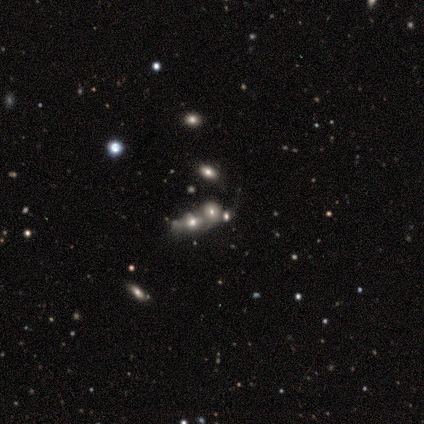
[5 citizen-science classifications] smooth 60%, star or artifact 40%, featured or disk 0%. Down the decision tree: how rounded — round (67%); merging — merger (67%).